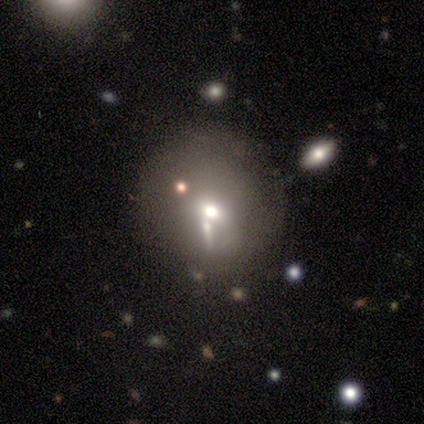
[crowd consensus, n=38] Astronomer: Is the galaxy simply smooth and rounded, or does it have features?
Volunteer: smooth — 63%.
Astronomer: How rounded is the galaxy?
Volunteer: round — 83%.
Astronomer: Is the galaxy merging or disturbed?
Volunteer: none — 56%.